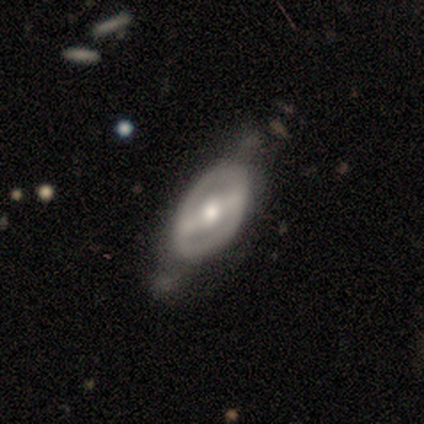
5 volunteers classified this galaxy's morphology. A featured or disk galaxy (80%) with a strong bar (100%), no spiral arms (75%) and a moderate central bulge (75%).

Vote fractions:
- Smooth or featured? featured or disk: 80% / star or artifact: 20% / smooth: 0%
- Edge-on disk? no: 100% / yes: 0%
- Bar? strong: 100% / weak: 0% / no: 0%
- Spiral arms? no: 75% / yes: 25%
- Bulge size? moderate: 75% / large: 25% / dominant: 0% / small: 0% / none: 0%
- Merging? major disturbance: 50% / none: 25% / minor disturbance: 25% / merger: 0%